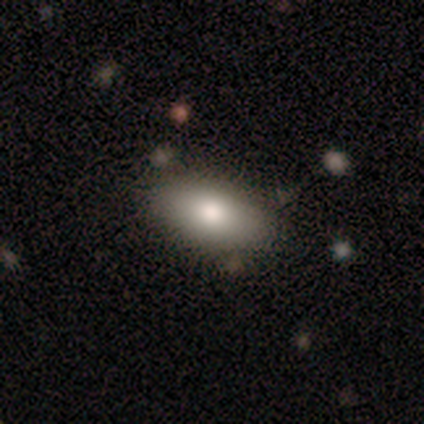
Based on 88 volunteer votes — smooth 80%, featured or disk 14%, star or artifact 7%. Down the decision tree: how rounded — in between (87%); merging — none (79%).